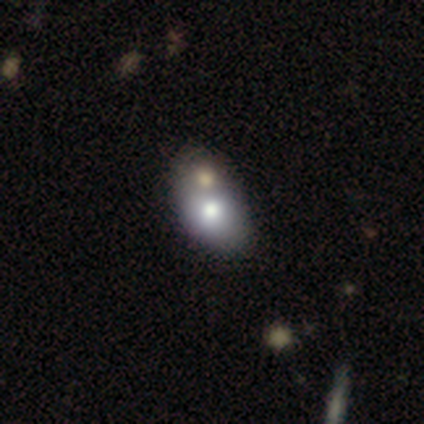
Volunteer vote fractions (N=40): This appears to be a smooth galaxy with no disk features (85%) that is in between round and cigar-shaped (88%). Merging: merger (54%).